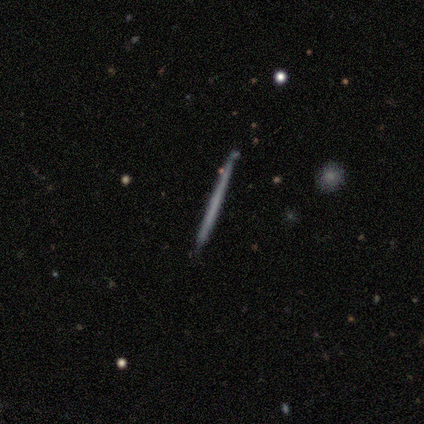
featured or disk 55%, smooth 45%, star or artifact 0%. Down the decision tree: edge-on disk — yes (100%); edge-on bulge — none (100%); merging — none (91%).